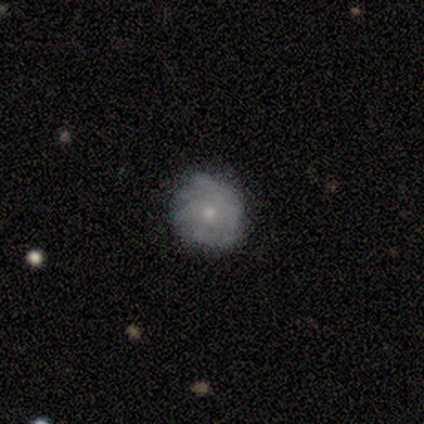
Smooth or featured: featured or disk — 67% (smooth — 33%)
Edge-on disk: yes — 50% (tied with no — 50%)
Edge-on bulge: boxy — 100%
Merging: minor disturbance — 67% (none — 33%)